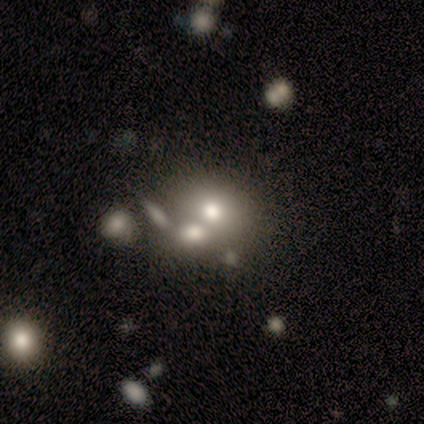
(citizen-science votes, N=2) Overall: smooth (50%, tied with star or artifact). How rounded: round (100%). Merging: merger (100%).